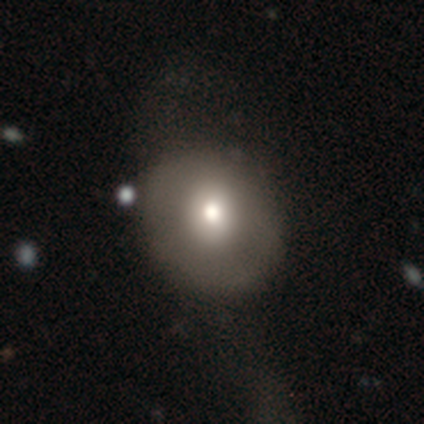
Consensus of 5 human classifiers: Smooth or featured? 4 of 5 (80%) said smooth. How rounded? 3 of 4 (75%) said round. Merging? 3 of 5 (60%) said minor disturbance.